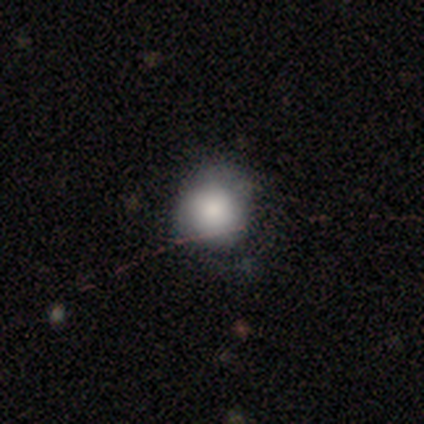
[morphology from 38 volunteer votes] A smooth galaxy with no disk features (71%) that is round (93%).

Vote fractions:
- Smooth or featured? smooth: 71% / star or artifact: 18% / featured or disk: 11%
- How rounded? round: 93% / in between: 7% / cigar-shaped: 0%
- Merging? none: 61% / minor disturbance: 19% / major disturbance: 16% / merger: 3%